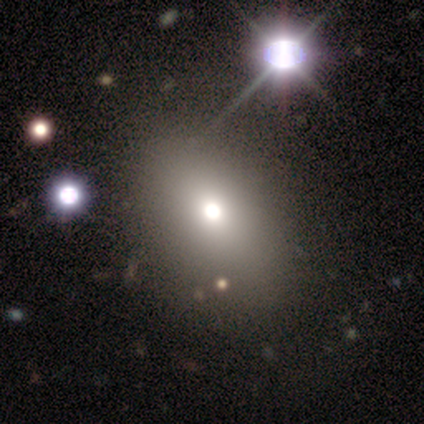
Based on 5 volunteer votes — smooth_or_featured: smooth (p=0.40) [tied with: featured or disk p=0.40]
how_rounded: round (p=0.50) [tied with: in between p=0.50]
merging: none (p=1.00)